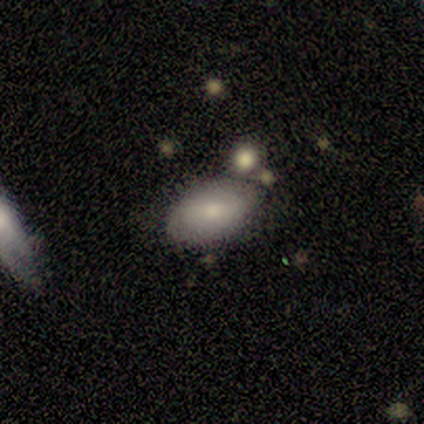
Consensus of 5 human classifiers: Q: Smooth or featured?
A: smooth (60%); runner-up: featured or disk (40%)
Q: How rounded?
A: in between (100%)
Q: Merging?
A: none (80%); runner-up: merger (20%)